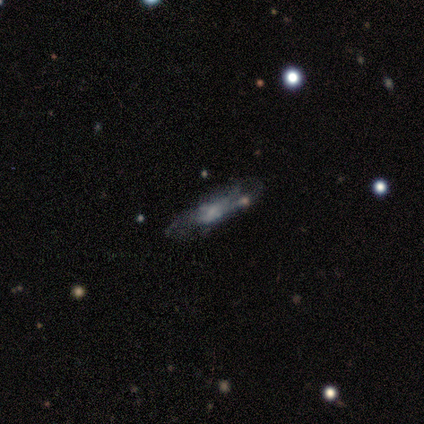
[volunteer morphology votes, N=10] smooth-or-featured: featured or disk: 70% | smooth: 30% | star or artifact: 0%
  disk-edge-on: no: 86% | yes: 14%
    bar: no: 83% | weak: 17% | strong: 0%
    has-spiral-arms: no: 67% | yes: 33%
    bulge-size: none: 50% | small: 33% | moderate: 17% | dominant: 0% | large: 0%
  merging: none: 60% | major disturbance: 20% | minor disturbance: 10% | merger: 10%